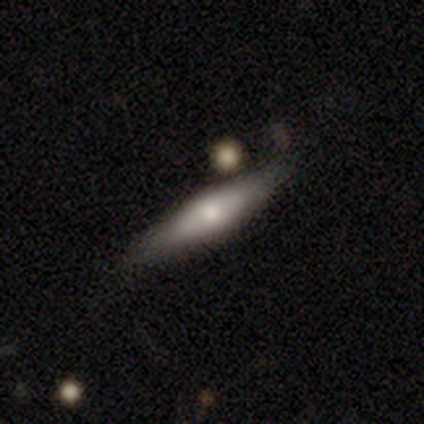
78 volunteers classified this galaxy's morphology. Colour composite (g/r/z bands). It shows a smooth galaxy with no disk features (54%) that is cigar-shaped (67%). Merging: none (40%).